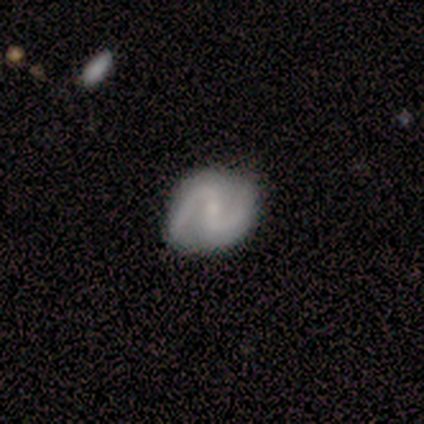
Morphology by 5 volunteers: Smooth or featured? 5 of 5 (100%) said featured or disk. Edge-on disk? 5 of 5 (100%) said no. Bar? 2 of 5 (40%, tied with no) said weak. Spiral arms? 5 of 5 (100%) said yes. Spiral winding? 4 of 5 (80%) said medium. Spiral arm count? 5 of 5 (100%) said 2. Bulge size? 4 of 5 (80%) said small. Merging? 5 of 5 (100%) said none.